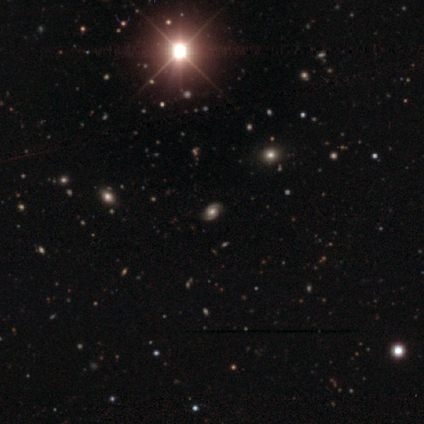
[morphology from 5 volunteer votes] smooth-or-featured: featured or disk: 40% (tied) | star or artifact: 40% (tied) | smooth: 20%
  disk-edge-on: no: 100% | yes: 0%
    bar: weak: 100% | strong: 0% | no: 0%
    has-spiral-arms: yes: 100% | no: 0%
      spiral-winding: tight: 50% (tied) | loose: 50% (tied) | medium: 0%
      spiral-arm-count: 2: 50% (tied) | 3: 50% (tied) | 1: 0% | 4: 0% | more than 4: 0% | can't tell: 0%
    bulge-size: moderate: 100% | dominant: 0% | large: 0% | small: 0% | none: 0%
  merging: none: 100% | minor disturbance: 0% | major disturbance: 0% | merger: 0%